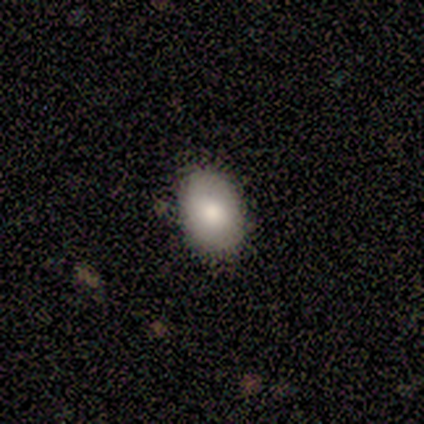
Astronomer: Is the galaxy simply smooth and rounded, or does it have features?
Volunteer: smooth — 67%.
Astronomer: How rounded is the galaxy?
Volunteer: in between — 75%.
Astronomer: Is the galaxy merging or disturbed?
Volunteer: none — 83%.